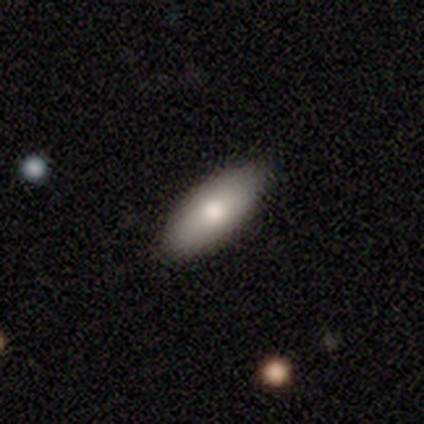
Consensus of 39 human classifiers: Morphology: type=smooth (92%); roundness=in between (89%); merging=none (82%).